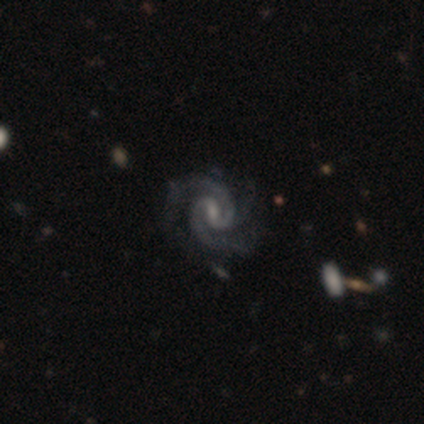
This is clearly a featured or disk galaxy (100%). It is clearly not viewed edge-on (100%). Bar: likely weak (60%). Spiral arm pattern: clearly yes (100%). Spiral arm count: clearly 2 (80%). Spiral winding: likely tight (60%). Central bulge: likely small (60%). Merging: clearly none (100%).